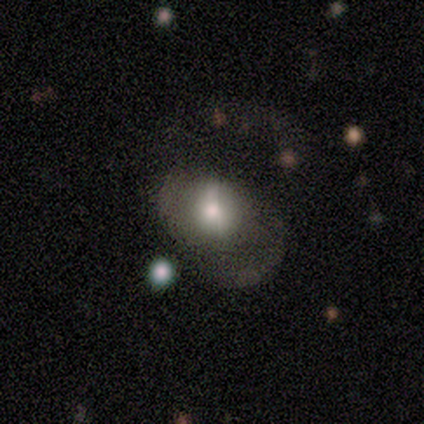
This appears to be a smooth galaxy with no disk features (55%) that is in between round and cigar-shaped (100%). Merging: major disturbance (56%).